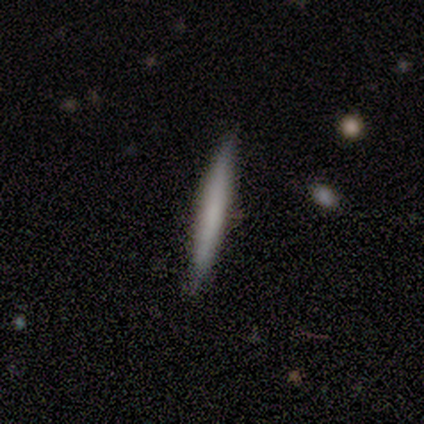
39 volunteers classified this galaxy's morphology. Smooth or featured? smooth (64%)
How rounded? cigar-shaped (100%)
Merging? none (84%)